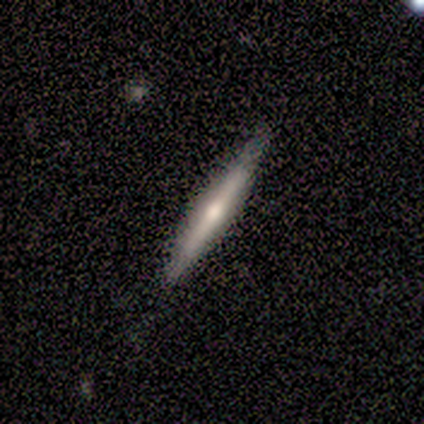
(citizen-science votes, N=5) featured or disk 80%, star or artifact 20%, smooth 0%. Down the decision tree: edge-on disk — yes (100%); edge-on bulge — rounded (100%); merging — none (100%).